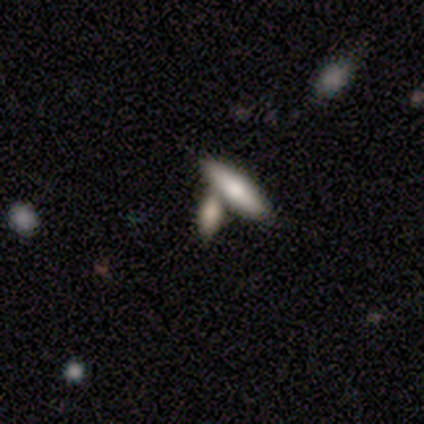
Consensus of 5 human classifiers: A smooth galaxy with no disk features (80%) that is in between round and cigar-shaped (50%, tied with cigar-shaped).

Vote fractions:
- Smooth or featured? smooth: 80% / featured or disk: 20% / star or artifact: 0%
- How rounded? in between: 50% (tied) / cigar-shaped: 50% (tied) / round: 0%
- Merging? merger: 60% / none: 20% / minor disturbance: 20% / major disturbance: 0%